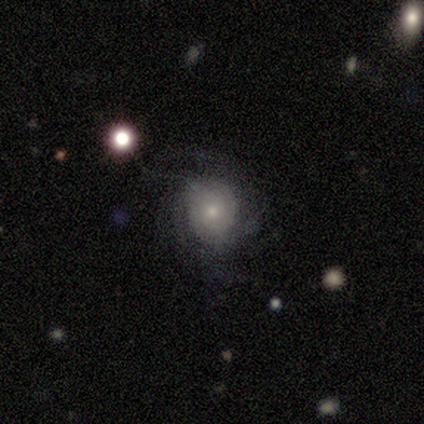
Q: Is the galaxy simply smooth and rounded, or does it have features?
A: featured or disk — 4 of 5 (80%).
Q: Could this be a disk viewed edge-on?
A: no — 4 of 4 (100%).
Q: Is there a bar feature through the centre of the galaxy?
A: no — 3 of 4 (75%).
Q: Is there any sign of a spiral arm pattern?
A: yes — 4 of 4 (100%).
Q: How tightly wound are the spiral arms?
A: tight — 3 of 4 (75%).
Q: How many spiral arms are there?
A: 4 — 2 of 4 (50%, tied with can't tell).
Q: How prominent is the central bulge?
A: small — 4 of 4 (100%).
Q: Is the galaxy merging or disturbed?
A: none — 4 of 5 (80%).